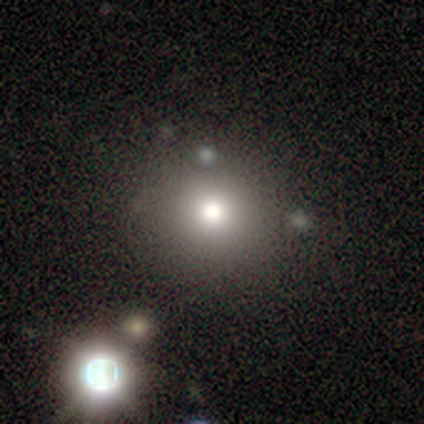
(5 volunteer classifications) Q: Smooth or featured?
A: smooth (80%); runner-up: star or artifact (20%)
Q: How rounded?
A: round (75%); runner-up: in between (25%)
Q: Merging?
A: none (75%); runner-up: minor disturbance (25%)